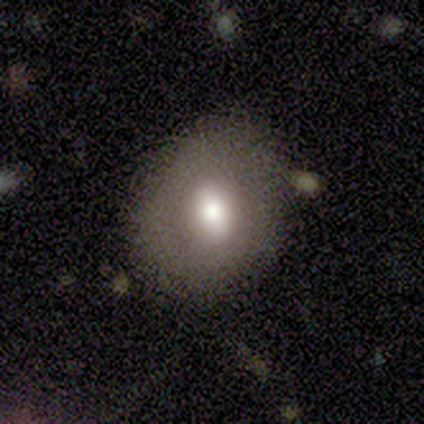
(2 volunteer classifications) Smooth or featured?
  - smooth: 50% * (tied)
  - featured or disk: 50% * (tied)
  - star or artifact: 0%
How rounded?
  - in between: 100% *
  - round: 0%
  - cigar-shaped: 0%
Merging?
  - none: 100% *
  - minor disturbance: 0%
  - major disturbance: 0%
  - merger: 0%